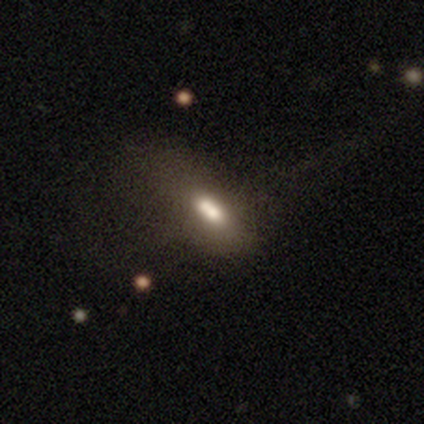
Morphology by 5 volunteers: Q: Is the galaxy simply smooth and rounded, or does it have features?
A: smooth — 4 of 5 (80%).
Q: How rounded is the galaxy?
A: in between — 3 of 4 (75%).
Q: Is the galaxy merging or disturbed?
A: major disturbance — 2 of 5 (40%, tied with merger).